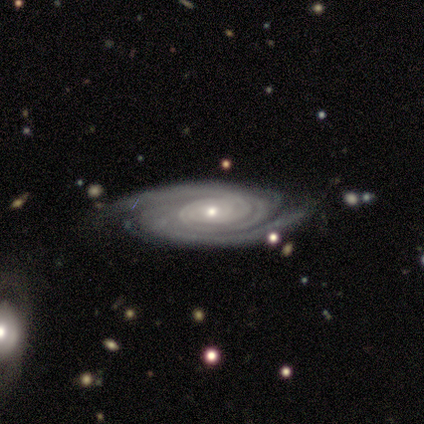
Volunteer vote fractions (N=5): Volunteers were most divided on "merging": minor disturbance: 60%, none: 40%, major disturbance: 0%, merger: 0%. More confident: smooth or featured — featured or disk (100%); edge-on disk — no (100%); spiral arms — yes (100%); spiral winding — tight (100%); spiral arm count — 3 (100%); bulge size — small (80%); bar — no (60%).